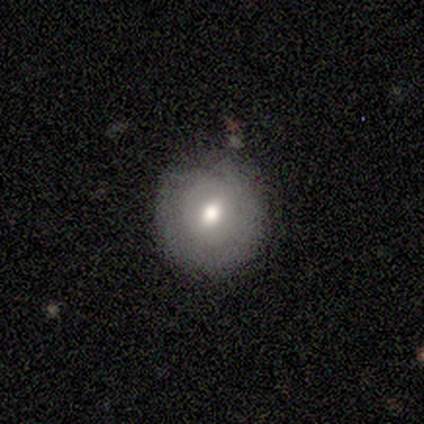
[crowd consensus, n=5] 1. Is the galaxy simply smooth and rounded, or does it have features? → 80% smooth, 20% featured or disk, 0% star or artifact.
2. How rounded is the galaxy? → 100% round, 0% in between, 0% cigar-shaped.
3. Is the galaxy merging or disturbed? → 80% none, 20% major disturbance, 0% minor disturbance, 0% merger.